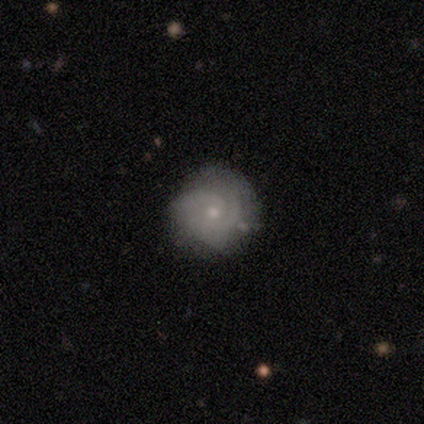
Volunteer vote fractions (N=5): Morphology: type=featured or disk (100%); edge-on=no (100%); bar=no (80%); spiral arms=yes (100%); winding=tight (80%); arm count=2 (60%); bulge=small (100%); merging=none (80%).